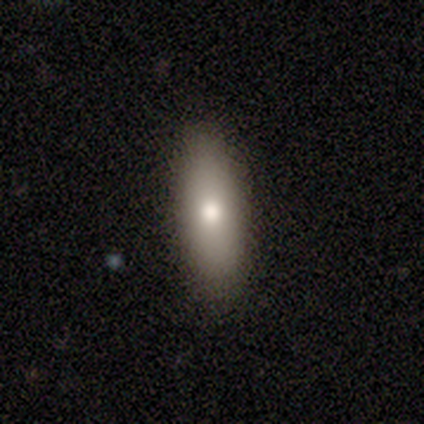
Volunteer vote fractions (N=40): Morphology: type=smooth (80%); roundness=in between (66%); merging=none (95%).